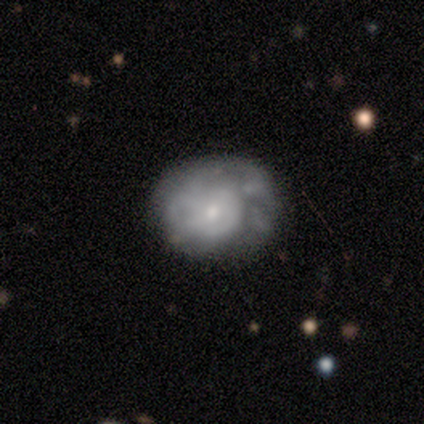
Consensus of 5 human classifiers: A smooth galaxy with no disk features (60%) that is round (100%).

Vote fractions:
- Smooth or featured? smooth: 60% / featured or disk: 40% / star or artifact: 0%
- How rounded? round: 100% / in between: 0% / cigar-shaped: 0%
- Merging? major disturbance: 60% / minor disturbance: 40% / none: 0% / merger: 0%